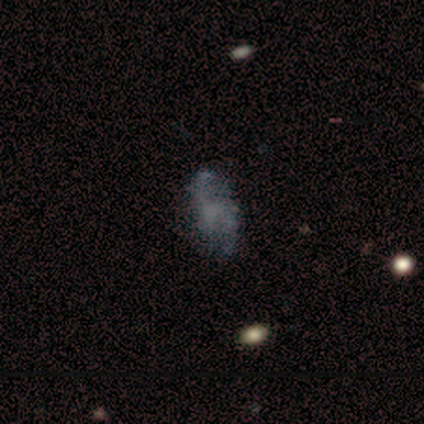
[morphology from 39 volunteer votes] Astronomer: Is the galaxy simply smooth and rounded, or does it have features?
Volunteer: featured or disk — 64%.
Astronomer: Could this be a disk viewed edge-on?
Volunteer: no — 100%.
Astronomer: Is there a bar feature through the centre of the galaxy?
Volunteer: no — 92%.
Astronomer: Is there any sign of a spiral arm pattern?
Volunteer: yes — 56% (runner-up: no, 44%).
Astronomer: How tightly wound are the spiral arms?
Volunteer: loose — 79%.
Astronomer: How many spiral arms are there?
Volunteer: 2 — 71%.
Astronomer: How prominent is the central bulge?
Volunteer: none — 88%.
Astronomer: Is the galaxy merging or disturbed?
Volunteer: none — 57%.